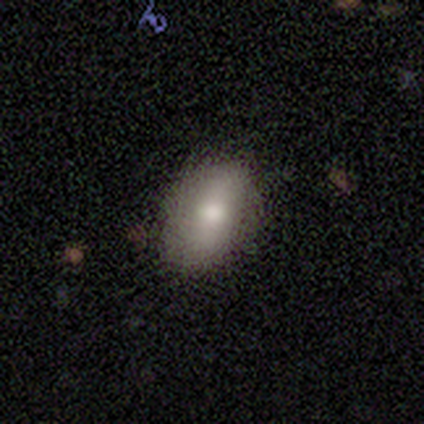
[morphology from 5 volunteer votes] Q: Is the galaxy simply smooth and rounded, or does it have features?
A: smooth — 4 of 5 (80%).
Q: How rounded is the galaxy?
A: in between — 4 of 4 (100%).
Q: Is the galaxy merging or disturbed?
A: none — 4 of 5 (80%).